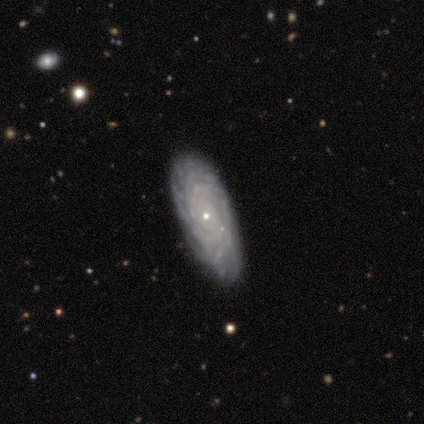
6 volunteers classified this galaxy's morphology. A featured or disk galaxy (100%) with no bar (83%), more than 4 (50%) tight (100%) spiral arms (100%) and a small central bulge (100%). Merging: none (83%).